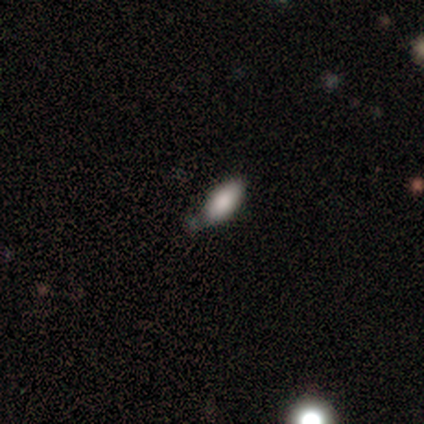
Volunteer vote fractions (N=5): This is clearly a smooth galaxy (80%). How rounded: likely in between (75%). Merging: clearly none (80%).